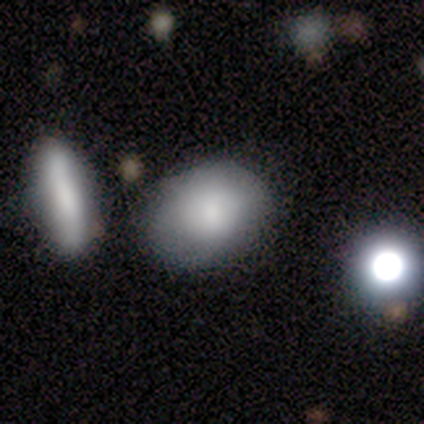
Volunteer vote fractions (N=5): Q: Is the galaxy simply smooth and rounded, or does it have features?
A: smooth — 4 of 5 (80%).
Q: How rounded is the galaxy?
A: in between — 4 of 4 (100%).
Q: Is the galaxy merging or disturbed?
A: none — 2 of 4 (50%, tied with minor disturbance).